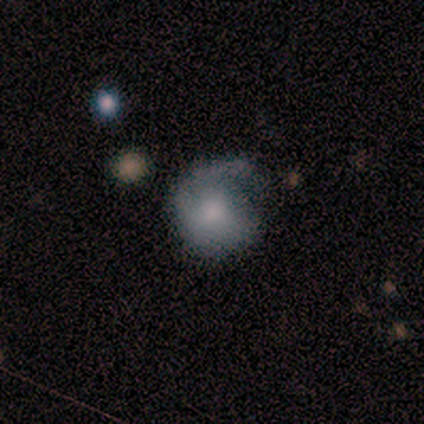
Smooth or featured?
  - smooth: 40% * (tied)
  - featured or disk: 40% * (tied)
  - star or artifact: 20%
How rounded?
  - round: 50% * (tied)
  - in between: 50% * (tied)
  - cigar-shaped: 0%
Merging?
  - minor disturbance: 50% *
  - none: 25%
  - major disturbance: 25%
  - merger: 0%